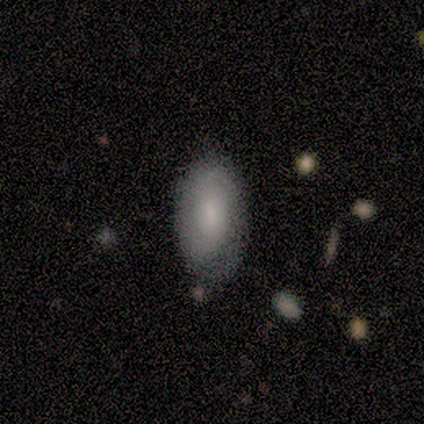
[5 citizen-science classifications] smooth_or_featured: smooth (p=0.80) [alt: star or artifact p=0.20]
how_rounded: in between (p=1.00)
merging: none (p=0.50) [tied with: minor disturbance p=0.50]